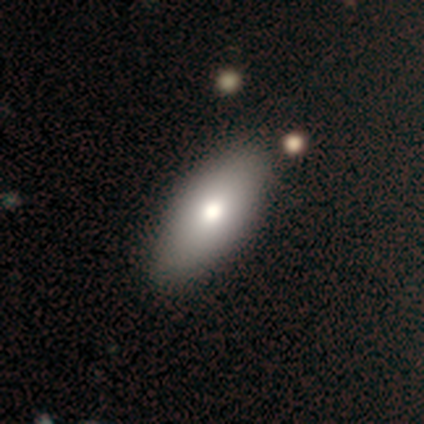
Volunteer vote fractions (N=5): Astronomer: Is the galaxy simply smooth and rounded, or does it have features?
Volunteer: smooth — 80%.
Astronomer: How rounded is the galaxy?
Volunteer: in between — 100%.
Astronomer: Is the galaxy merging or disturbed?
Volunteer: none — 75%.